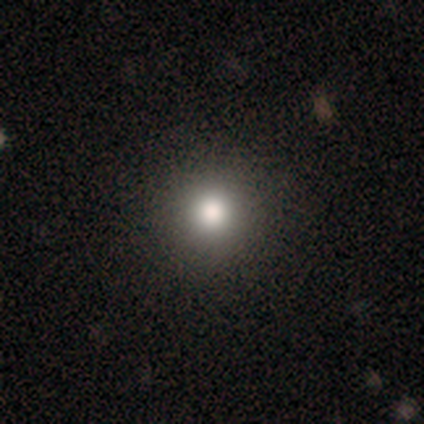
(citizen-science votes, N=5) Smooth or featured: smooth — 80% (star or artifact — 20%)
How rounded: round — 100%
Merging: none — 100%